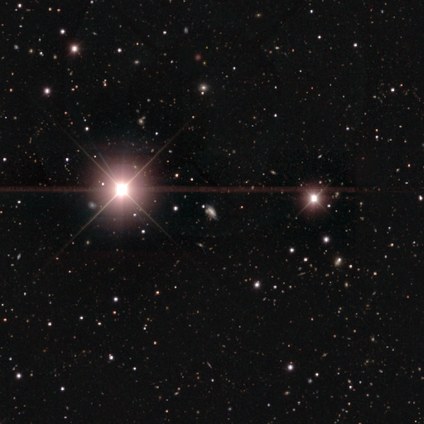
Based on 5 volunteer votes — Overall: star or artifact (80%).